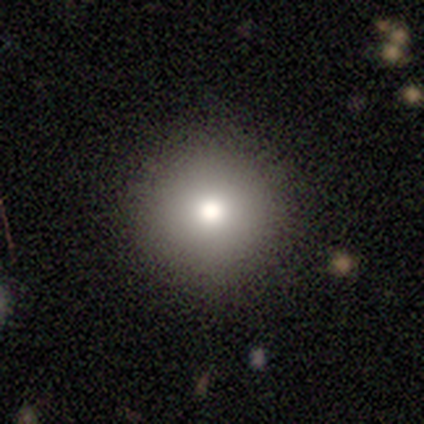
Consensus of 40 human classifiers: Smooth or featured: smooth — 78% (featured or disk — 12%)
How rounded: round — 97% (in between — 3%)
Merging: none — 92% (minor disturbance — 6%)